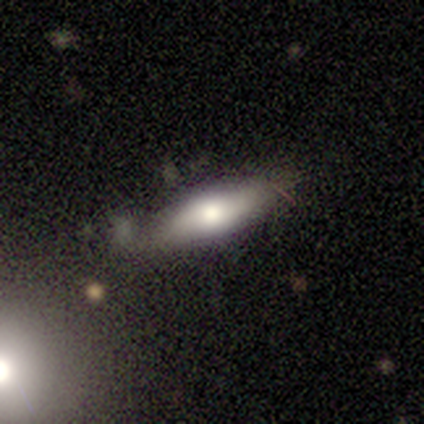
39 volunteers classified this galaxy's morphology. smooth 56%, featured or disk 38%, star or artifact 5%. Down the decision tree: how rounded — in between (55%); merging — none (70%).